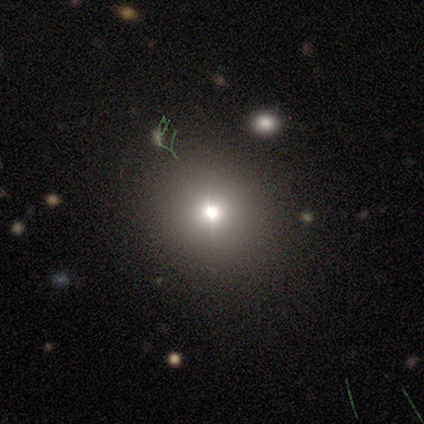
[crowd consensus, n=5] Smooth or featured?
  - smooth: 60% *
  - star or artifact: 40%
  - featured or disk: 0%
How rounded?
  - round: 100% *
  - in between: 0%
  - cigar-shaped: 0%
Merging?
  - none: 100% *
  - minor disturbance: 0%
  - major disturbance: 0%
  - merger: 0%